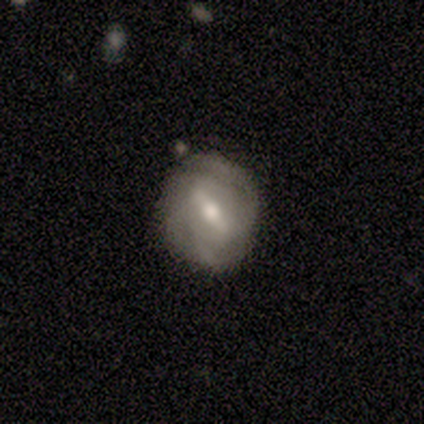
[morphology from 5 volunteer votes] A featured or disk galaxy (60%) with a weak bar (100%), 2 (100%) tight (50%, tied with medium) spiral arms (100%) and a moderate central bulge (100%).

Vote fractions:
- Smooth or featured? featured or disk: 60% / smooth: 40% / star or artifact: 0%
- Edge-on disk? no: 67% / yes: 33%
- Bar? weak: 100% / strong: 0% / no: 0%
- Spiral arms? yes: 100% / no: 0%
- Spiral winding? tight: 50% (tied) / medium: 50% (tied) / loose: 0%
- Spiral arm count? 2: 100% / 1: 0% / 3: 0% / 4: 0% / more than 4: 0% / can't tell: 0%
- Bulge size? moderate: 100% / dominant: 0% / large: 0% / small: 0% / none: 0%
- Merging? none: 100% / minor disturbance: 0% / major disturbance: 0% / merger: 0%